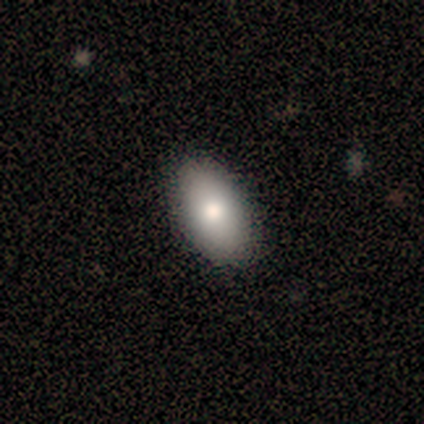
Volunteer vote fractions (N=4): Smooth or featured: smooth — 50% (featured or disk — 25%)
How rounded: in between — 100%
Merging: none — 100%